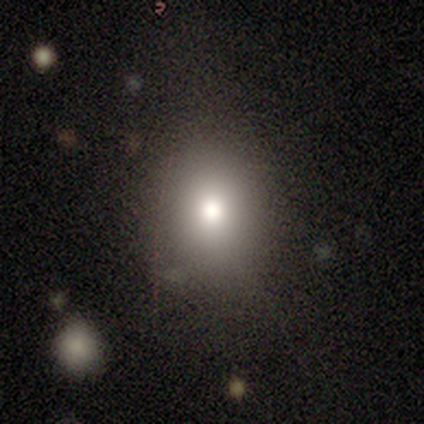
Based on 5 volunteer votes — Smooth or featured?
  - smooth: 80% *
  - star or artifact: 20%
  - featured or disk: 0%
How rounded?
  - round: 75% *
  - in between: 25%
  - cigar-shaped: 0%
Merging?
  - none: 75% *
  - minor disturbance: 25%
  - major disturbance: 0%
  - merger: 0%